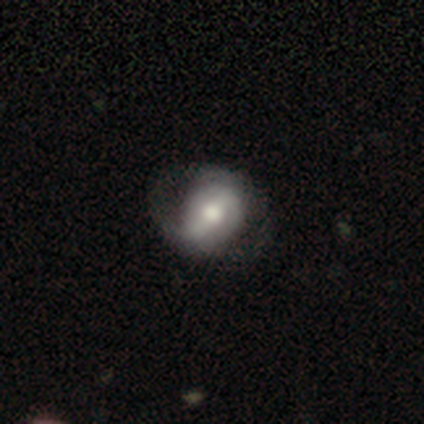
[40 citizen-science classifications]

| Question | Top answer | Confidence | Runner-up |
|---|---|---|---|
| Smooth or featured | featured or disk | 80% | smooth (18%) |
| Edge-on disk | no | 94% | yes (6%) |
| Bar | strong | 47% | weak (30%) |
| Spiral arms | yes | 73% | no (27%) |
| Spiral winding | loose | 59% | medium (23%) |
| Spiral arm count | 2 | 64% | can't tell (23%) |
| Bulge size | moderate | 50% | large (33%) |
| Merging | none | 74% | major disturbance (15%) |